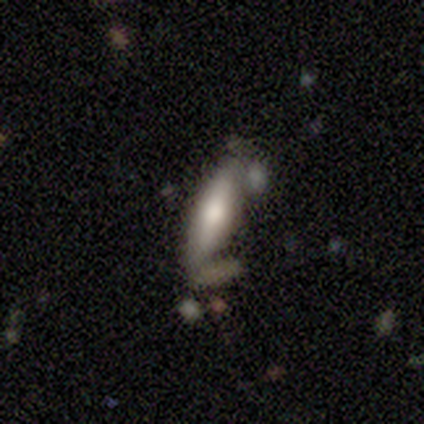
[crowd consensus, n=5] smooth-or-featured: featured or disk: 60% | smooth: 40% | star or artifact: 0%
  disk-edge-on: yes: 67% | no: 33%
    edge-on-bulge: rounded: 100% | boxy: 0% | none: 0%
  merging: none: 80% | merger: 20% | minor disturbance: 0% | major disturbance: 0%